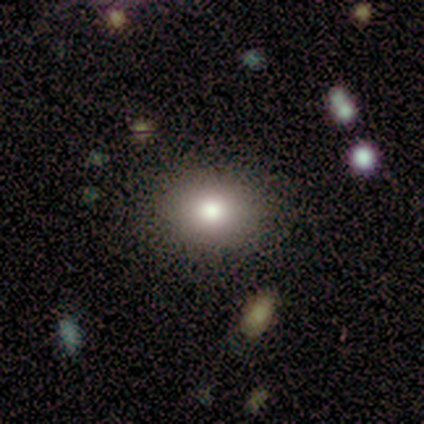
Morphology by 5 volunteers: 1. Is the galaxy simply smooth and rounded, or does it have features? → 80% smooth, 20% star or artifact, 0% featured or disk.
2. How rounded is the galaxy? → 100% in between, 0% round, 0% cigar-shaped.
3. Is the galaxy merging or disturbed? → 75% none, 25% minor disturbance, 0% major disturbance, 0% merger.